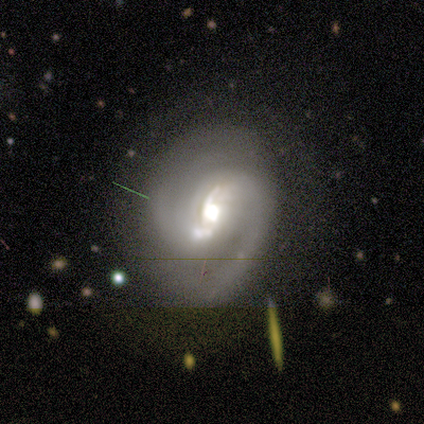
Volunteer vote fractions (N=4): Volunteers were most divided on "bar" (2-way tie): weak: 50%, no: 50%, strong: 0%; "bulge size" (4-way tie): large: 25%, moderate: 25%, small: 25%, none: 25%, dominant: 0%. More confident: smooth or featured — featured or disk (100%); edge-on disk — no (100%); spiral arms — yes (100%); spiral winding — medium (75%); spiral arm count — 2 (75%); merging — none (50%).